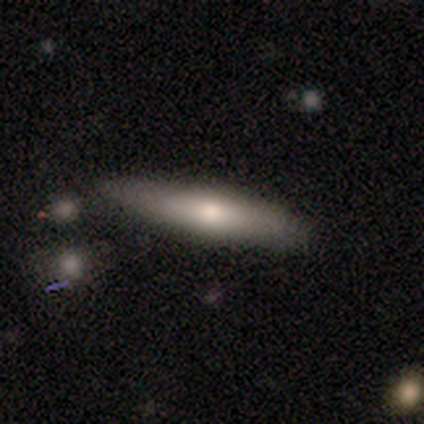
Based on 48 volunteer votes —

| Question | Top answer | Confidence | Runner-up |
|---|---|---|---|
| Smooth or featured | smooth | 62% | featured or disk (29%) |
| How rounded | cigar-shaped | 70% | in between (30%) |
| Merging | none | 68% | minor disturbance (16%) |